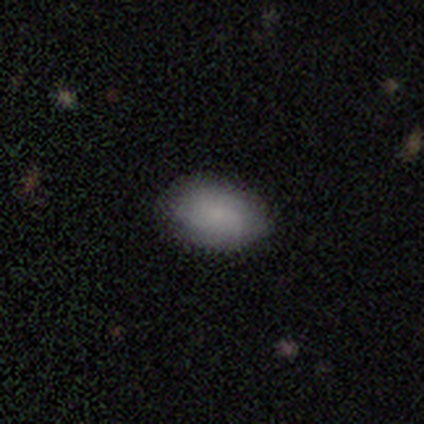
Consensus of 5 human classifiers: Smooth or featured? smooth (100%)
How rounded? in between (100%)
Merging? none (100%)